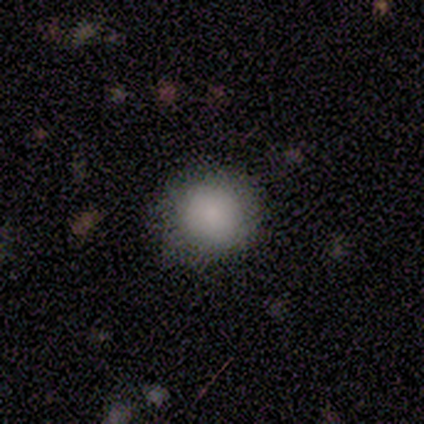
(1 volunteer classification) Consensus on every question: smooth or featured — smooth (100%); how rounded — round (100%); merging — none (100%).